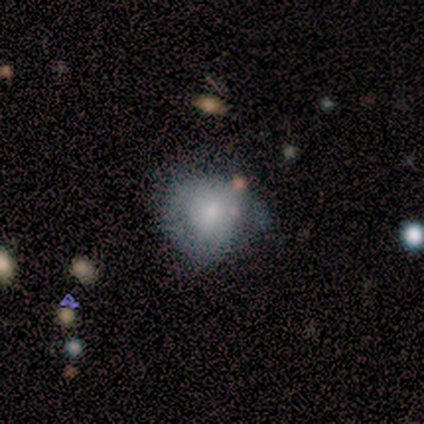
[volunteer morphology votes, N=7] A smooth galaxy with no disk features (86%) that is round (83%).

Vote fractions:
- Smooth or featured? smooth: 86% / featured or disk: 14% / star or artifact: 0%
- How rounded? round: 83% / in between: 17% / cigar-shaped: 0%
- Merging? none: 43% (tied) / minor disturbance: 43% (tied) / major disturbance: 14% / merger: 0%